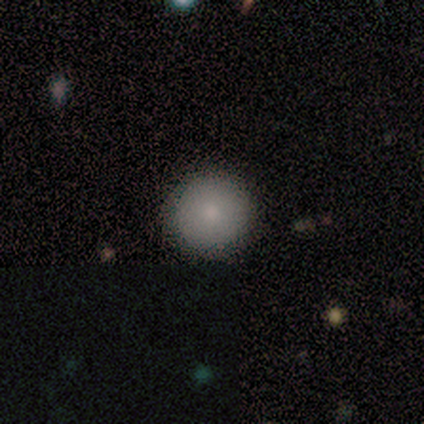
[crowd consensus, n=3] This is likely a smooth galaxy (67%). How rounded: clearly round (100%). Merging: likely none (67%).